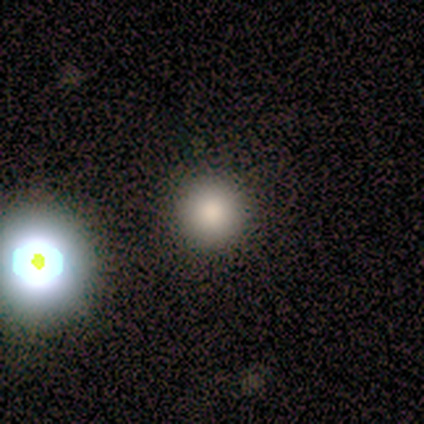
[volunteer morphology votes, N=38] This appears to be a smooth galaxy with no disk features (68%) that is round (96%). Merging: none (87%).